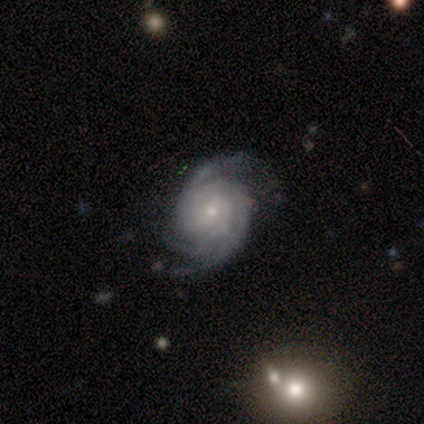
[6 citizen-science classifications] smooth-or-featured: featured or disk: 100% | smooth: 0% | star or artifact: 0%
  disk-edge-on: no: 100% | yes: 0%
    bar: no: 100% | strong: 0% | weak: 0%
    has-spiral-arms: yes: 100% | no: 0%
      spiral-winding: tight: 67% | medium: 33% | loose: 0%
      spiral-arm-count: 3: 50% | 2: 33% | 4: 17% | 1: 0% | more than 4: 0% | can't tell: 0%
    bulge-size: small: 100% | dominant: 0% | large: 0% | moderate: 0% | none: 0%
  merging: none: 100% | minor disturbance: 0% | major disturbance: 0% | merger: 0%